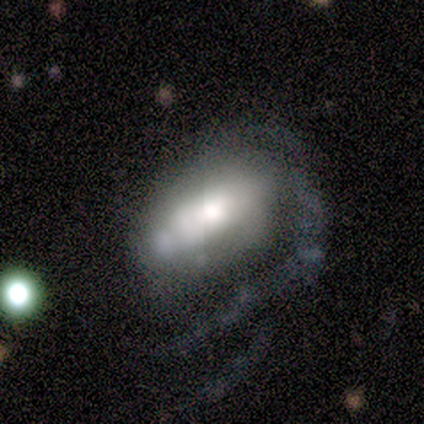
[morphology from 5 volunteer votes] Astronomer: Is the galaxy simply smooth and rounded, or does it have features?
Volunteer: featured or disk — 100%.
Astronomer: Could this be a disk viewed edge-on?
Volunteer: no — 60% (runner-up: yes, 40%).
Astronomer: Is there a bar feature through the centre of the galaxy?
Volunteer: strong — 67%.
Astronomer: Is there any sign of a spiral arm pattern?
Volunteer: yes — 67%.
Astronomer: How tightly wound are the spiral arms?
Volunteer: medium — 50%, tied with loose at 50%.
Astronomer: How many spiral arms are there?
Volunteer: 1 — 50%, tied with can't tell at 50%.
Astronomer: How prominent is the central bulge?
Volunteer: moderate — 67%.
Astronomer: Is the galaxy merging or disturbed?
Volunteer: minor disturbance — 40%, tied with major disturbance at 40%.